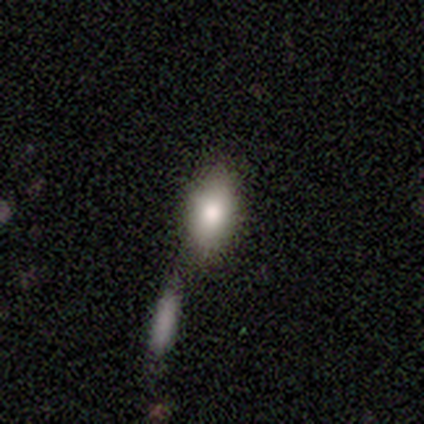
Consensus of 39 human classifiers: Morphology: type=smooth (82%); roundness=in between (91%); merging=none (54%).